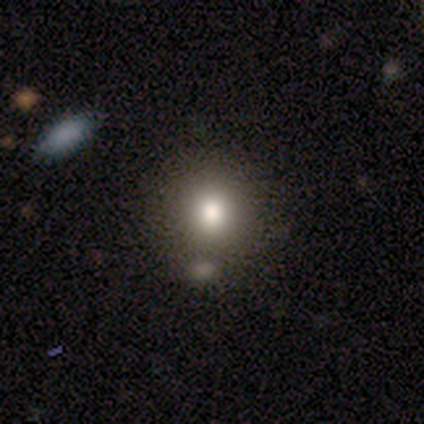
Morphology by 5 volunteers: Smooth or featured? smooth (100%)
How rounded? round (100%)
Merging? none (80%)